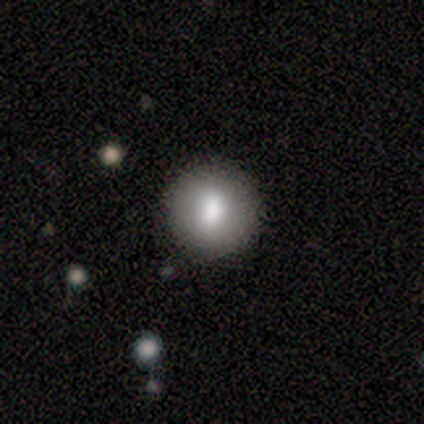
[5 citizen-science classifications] Morphology: type=smooth (80%); roundness=round (100%); merging=none (100%).